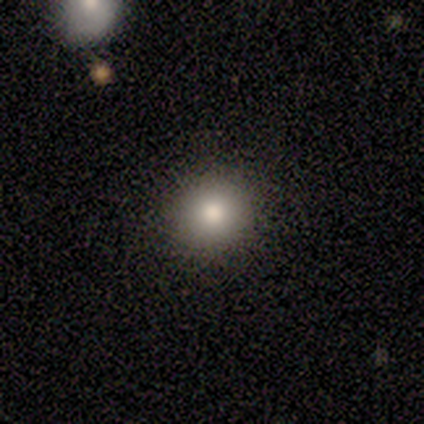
Morphology: type=smooth (83%); roundness=round (85%); merging=none (97%).